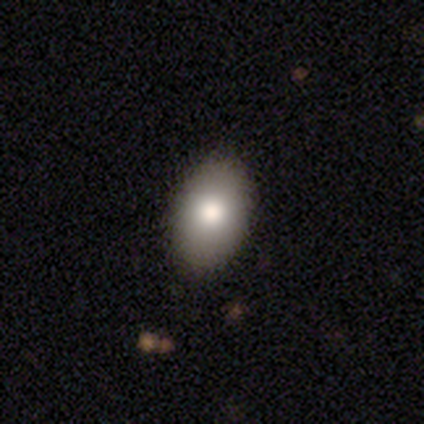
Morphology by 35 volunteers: Smooth or featured? smooth (77%)
How rounded? in between (89%)
Merging? none (90%)